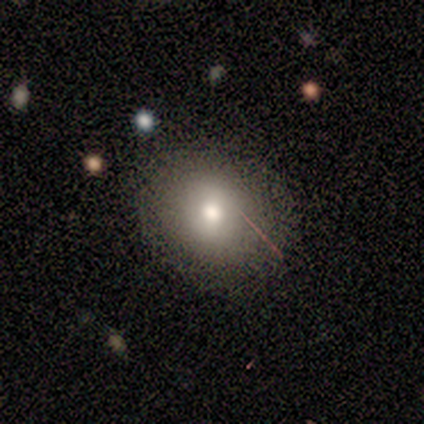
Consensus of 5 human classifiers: Smooth or featured?
  - smooth: 80% *
  - star or artifact: 20%
  - featured or disk: 0%
How rounded?
  - round: 50% * (tied)
  - in between: 50% * (tied)
  - cigar-shaped: 0%
Merging?
  - none: 100% *
  - minor disturbance: 0%
  - major disturbance: 0%
  - merger: 0%